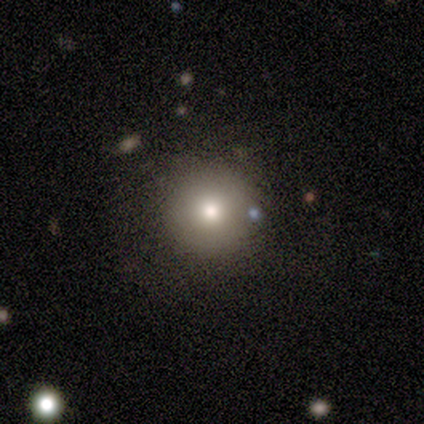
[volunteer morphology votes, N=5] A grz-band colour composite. It shows a featured or disk galaxy (60%) with no bar (67%), no spiral arms (100%) and a moderate central bulge (67%). Merging: none (100%).